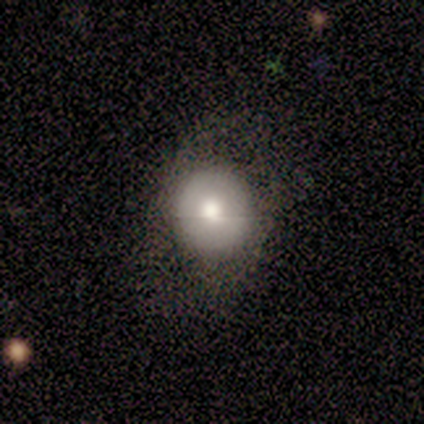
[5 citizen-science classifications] A smooth galaxy with no disk features (60%) that is round (100%).

Vote fractions:
- Smooth or featured? smooth: 60% / featured or disk: 20% / star or artifact: 20%
- How rounded? round: 100% / in between: 0% / cigar-shaped: 0%
- Merging? none: 50% (tied) / minor disturbance: 50% (tied) / major disturbance: 0% / merger: 0%